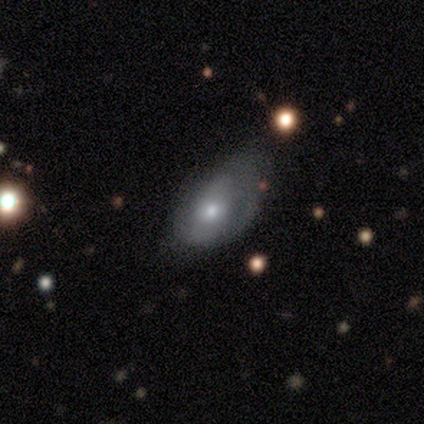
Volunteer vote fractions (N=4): Smooth or featured? smooth (50%, tied with featured or disk)
How rounded? round (50%, tied with in between)
Merging? minor disturbance (75%)